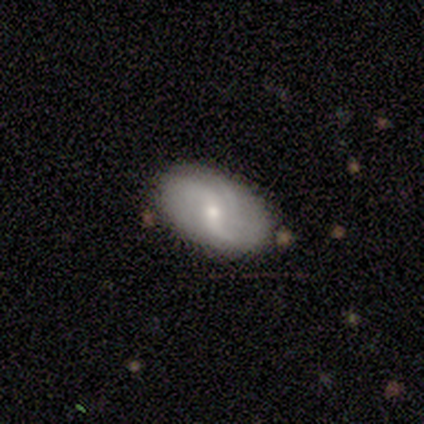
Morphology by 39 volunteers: Smooth or featured?
  - featured or disk: 67% *
  - smooth: 26%
  - star or artifact: 8%
Edge-on disk?
  - no: 92% *
  - yes: 8%
Bar?
  - weak: 38% *
  - no: 33%
  - strong: 29%
Spiral arms?
  - yes: 88% *
  - no: 12%
Spiral winding?
  - loose: 76% *
  - medium: 24%
  - tight: 0%
Spiral arm count?
  - 2: 62% *
  - can't tell: 19%
  - 3: 14%
  - 1: 5%
  - 4: 0%
  - more than 4: 0%
Bulge size?
  - small: 58% *
  - moderate: 42%
  - dominant: 0%
  - large: 0%
  - none: 0%
Merging?
  - none: 72% *
  - minor disturbance: 19%
  - merger: 6%
  - major disturbance: 3%